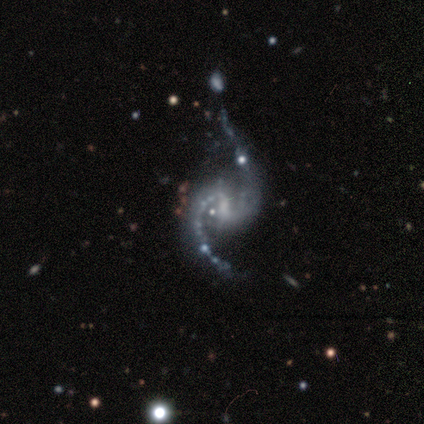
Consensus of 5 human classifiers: Volunteers were most divided on "bar": strong: 60%, weak: 40%, no: 0%. Remaining: smooth or featured — featured or disk (100%); edge-on disk — no (100%); spiral arms — yes (100%); spiral arm count — 2 (100%); spiral winding — loose (60%); bulge size — moderate (40%); merging — major disturbance (40%).